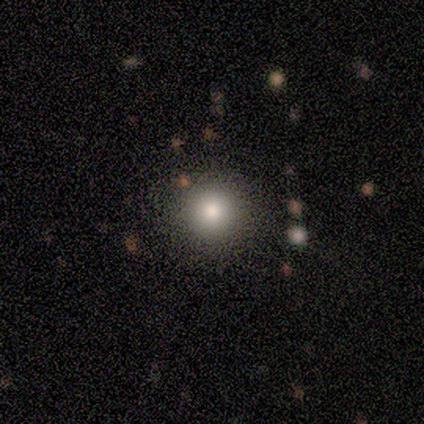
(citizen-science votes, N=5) A smooth galaxy with no disk features (100%) that is round (100%). Merging: none (100%).